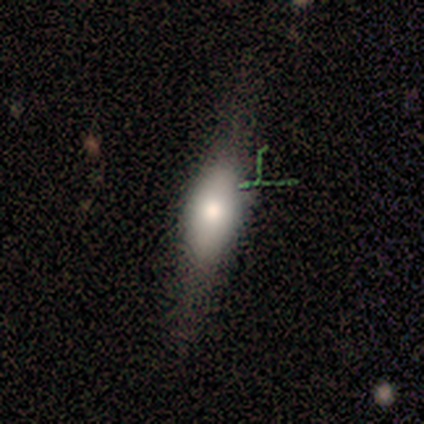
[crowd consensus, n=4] smooth 75%, featured or disk 25%, star or artifact 0%. Down the decision tree: how rounded — in between (67%); merging — none (50%, tied with minor disturbance).